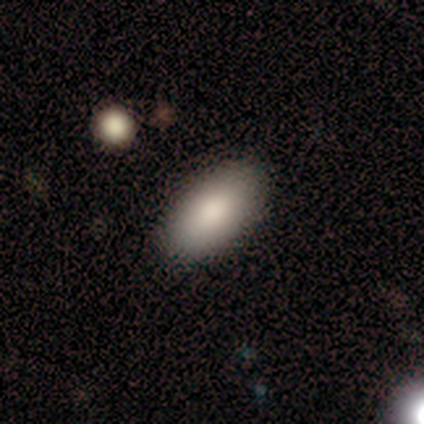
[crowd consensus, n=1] Q: Smooth or featured?
A: featured or disk (100%)
Q: Edge-on disk?
A: no (100%)
Q: Bar?
A: no (100%)
Q: Spiral arms?
A: no (100%)
Q: Bulge size?
A: dominant (100%)
Q: Merging?
A: minor disturbance (100%)